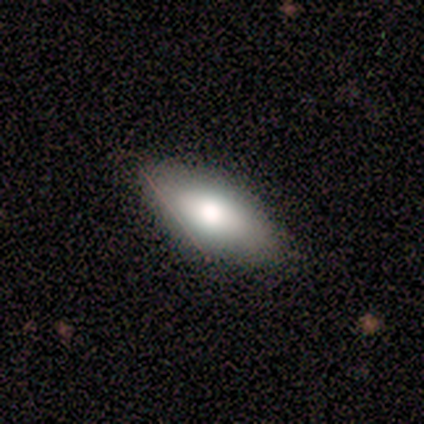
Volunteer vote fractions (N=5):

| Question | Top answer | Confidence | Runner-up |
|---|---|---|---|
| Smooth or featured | smooth | 100% | — |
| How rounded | in between | 60% | cigar-shaped (40%) |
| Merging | none | 60% | minor disturbance (40%) |